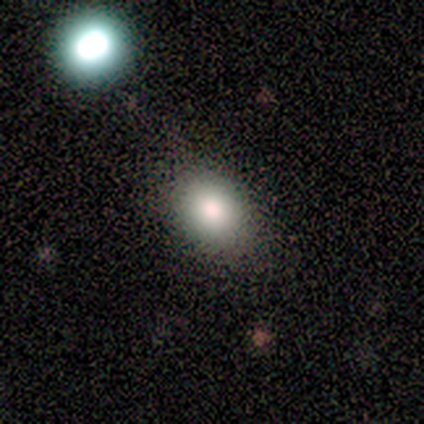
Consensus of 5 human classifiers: Volunteers were most divided on "smooth or featured": smooth: 60%, featured or disk: 40%, star or artifact: 0%. More confident: how rounded — in between (67%); merging — none (60%).